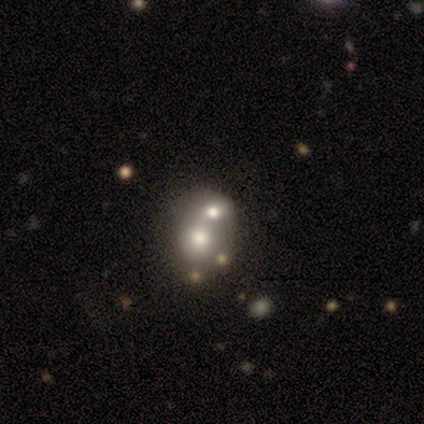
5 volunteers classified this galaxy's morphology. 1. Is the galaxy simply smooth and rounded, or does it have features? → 60% featured or disk, 40% smooth, 0% star or artifact.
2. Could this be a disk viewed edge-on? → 67% no, 33% yes.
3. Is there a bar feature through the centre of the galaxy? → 100% no, 0% strong, 0% weak.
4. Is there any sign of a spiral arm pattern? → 100% no, 0% yes.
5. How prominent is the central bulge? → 50% dominant (tied), 50% large (tied), 0% moderate, 0% small, 0% none.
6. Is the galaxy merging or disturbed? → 100% merger, 0% none, 0% minor disturbance, 0% major disturbance.